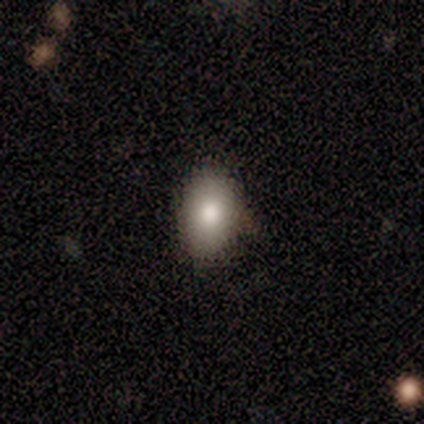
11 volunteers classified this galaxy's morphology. smooth-or-featured: smooth: 91% | star or artifact: 9% | featured or disk: 0%
  how-rounded: in between: 100% | round: 0% | cigar-shaped: 0%
  merging: none: 70% | minor disturbance: 30% | major disturbance: 0% | merger: 0%